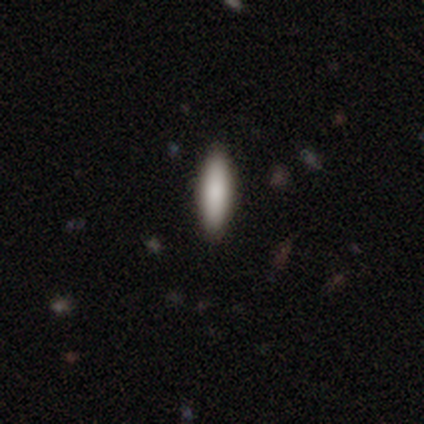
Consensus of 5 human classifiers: A smooth galaxy with no disk features (80%) that is in between round and cigar-shaped (50%, tied with cigar-shaped).

Vote fractions:
- Smooth or featured? smooth: 80% / featured or disk: 20% / star or artifact: 0%
- How rounded? in between: 50% (tied) / cigar-shaped: 50% (tied) / round: 0%
- Merging? none: 60% / minor disturbance: 40% / major disturbance: 0% / merger: 0%